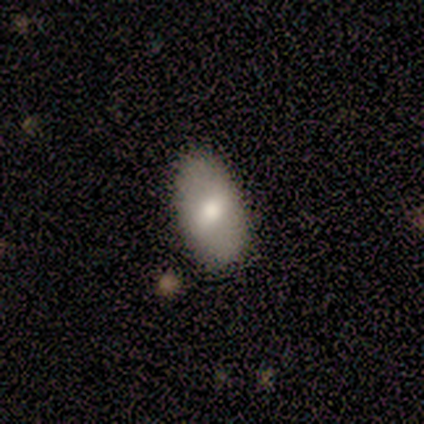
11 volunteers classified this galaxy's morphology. A smooth galaxy with no disk features (64%) that is in between round and cigar-shaped (100%).

Vote fractions:
- Smooth or featured? smooth: 64% / featured or disk: 36% / star or artifact: 0%
- How rounded? in between: 100% / round: 0% / cigar-shaped: 0%
- Merging? none: 82% / minor disturbance: 9% / major disturbance: 9% / merger: 0%